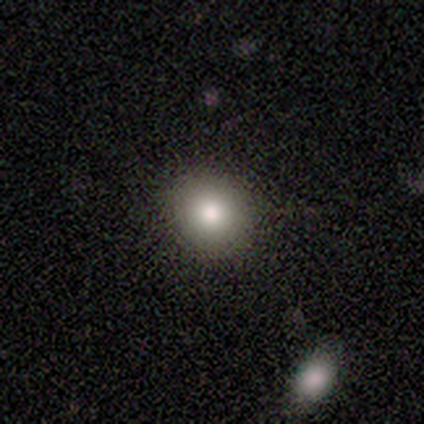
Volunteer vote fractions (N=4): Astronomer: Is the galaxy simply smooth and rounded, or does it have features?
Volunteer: smooth — 100%.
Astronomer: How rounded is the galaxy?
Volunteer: round — 100%.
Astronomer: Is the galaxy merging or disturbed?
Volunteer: none — 100%.